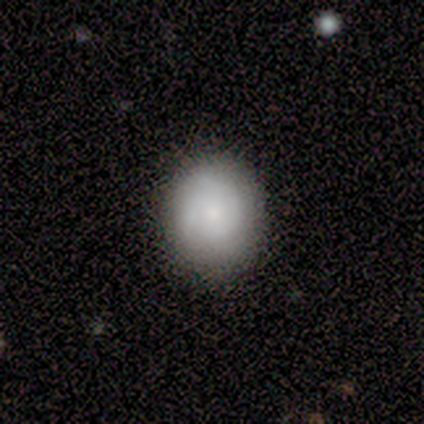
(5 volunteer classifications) A featured or disk galaxy (60%) with no bar (100%), 2 (100%) tight (100%) spiral arms (67%) and a dominant central bulge (33%, tied with moderate and small). Merging: none (80%).